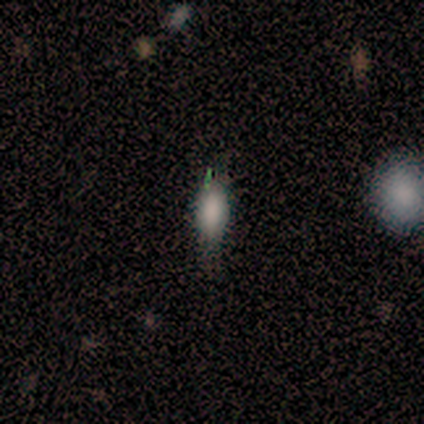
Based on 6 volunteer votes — smooth_or_featured: smooth (p=0.83) [alt: star or artifact p=0.17]
how_rounded: in between (p=1.00)
merging: none (p=1.00)